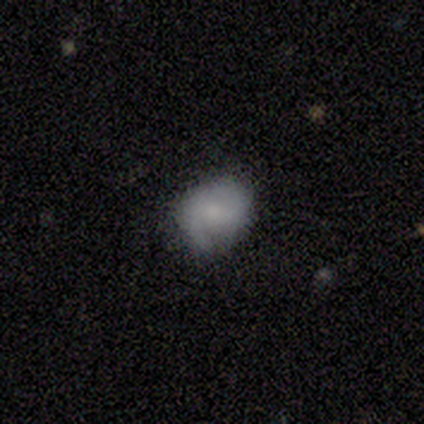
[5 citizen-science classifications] Morphology: type=smooth (60%); roundness=round (100%); merging=none (100%).